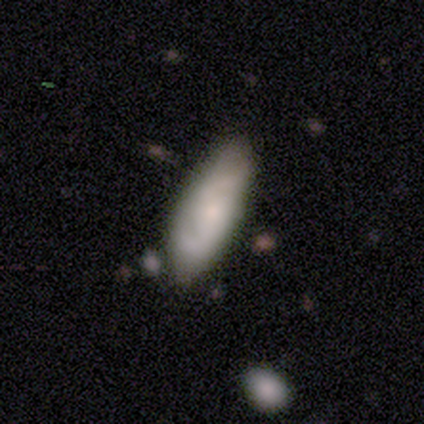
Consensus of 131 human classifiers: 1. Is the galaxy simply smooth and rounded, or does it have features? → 49% featured or disk, 48% smooth, 3% star or artifact.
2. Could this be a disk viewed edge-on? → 89% no, 11% yes.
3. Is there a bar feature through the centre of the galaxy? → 63% no, 30% weak, 7% strong.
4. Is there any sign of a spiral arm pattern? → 86% yes, 14% no.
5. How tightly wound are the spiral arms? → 45% medium, 39% loose, 16% tight.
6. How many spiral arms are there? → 78% 2, 22% can't tell, 0% 1, 0% 3, 0% 4, 0% more than 4.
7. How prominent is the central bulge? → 56% small, 28% moderate, 11% none, 5% large, 0% dominant.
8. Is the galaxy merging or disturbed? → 62% none, 29% minor disturbance, 6% major disturbance, 3% merger.